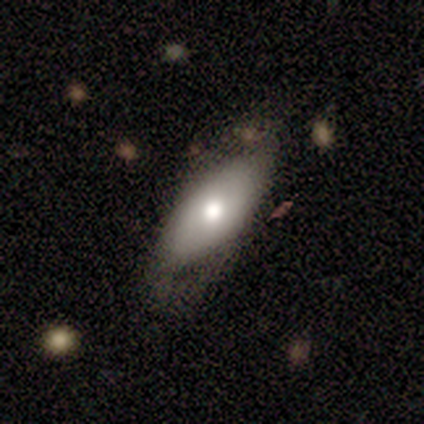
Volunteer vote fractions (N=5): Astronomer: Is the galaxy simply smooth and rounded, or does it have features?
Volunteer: featured or disk — 60% (runner-up: smooth, 40%).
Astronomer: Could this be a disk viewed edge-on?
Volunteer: no — 100%.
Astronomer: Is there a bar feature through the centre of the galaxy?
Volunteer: no — 67%.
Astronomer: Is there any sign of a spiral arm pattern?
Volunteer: no — 67%.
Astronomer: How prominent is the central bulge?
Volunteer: moderate — 67%.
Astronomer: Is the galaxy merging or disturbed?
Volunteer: none — 80%.